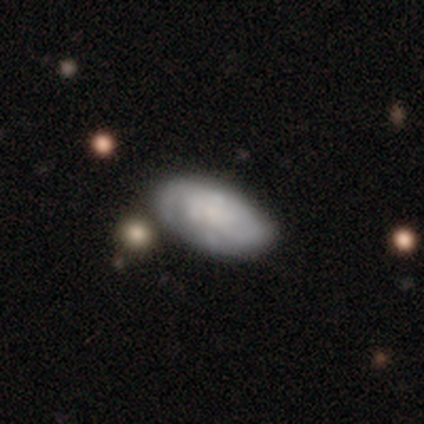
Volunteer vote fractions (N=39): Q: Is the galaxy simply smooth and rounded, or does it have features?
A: smooth — 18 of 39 (46%, tied with featured or disk).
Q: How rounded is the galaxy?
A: in between — 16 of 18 (89%).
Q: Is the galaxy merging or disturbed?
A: none — 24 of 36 (67%).